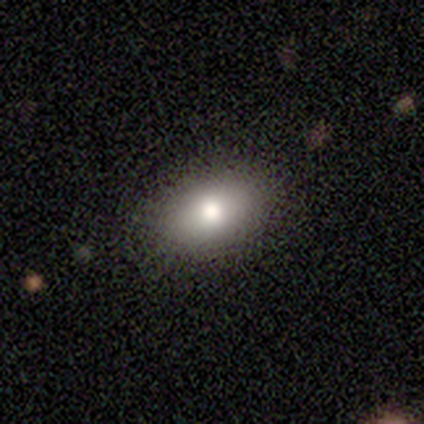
Smooth or featured: smooth — 71% (featured or disk — 14%)
How rounded: in between — 100%
Merging: none — 67% (minor disturbance — 33%)